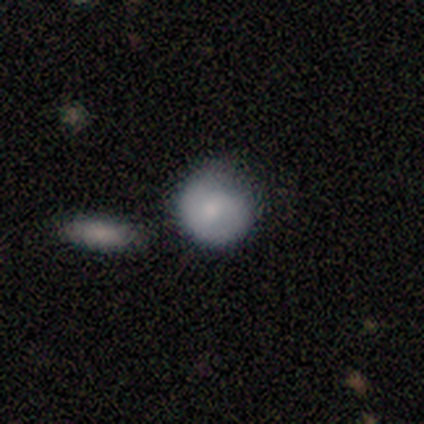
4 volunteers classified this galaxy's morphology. smooth 75%, featured or disk 25%, star or artifact 0%. Down the decision tree: how rounded — round (100%); merging — none (100%).